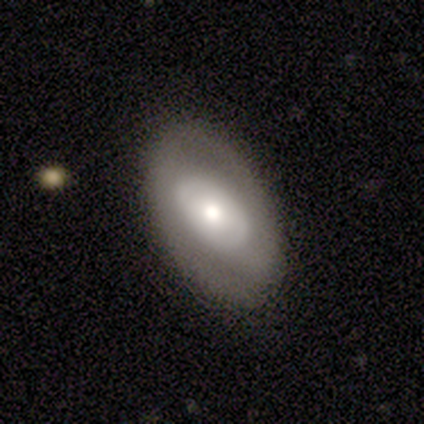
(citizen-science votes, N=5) smooth 60%, featured or disk 20%, star or artifact 20%. Down the decision tree: how rounded — in between (100%); merging — none (100%).